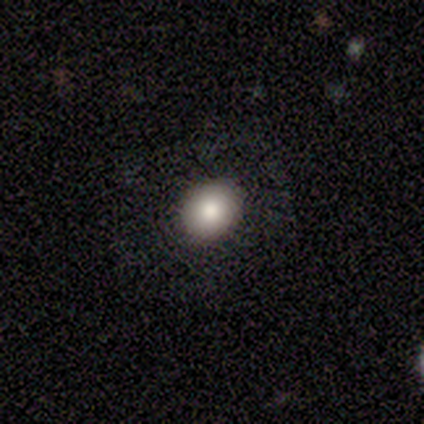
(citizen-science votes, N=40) Morphology: type=smooth (68%); roundness=round (56%); merging=none (84%).